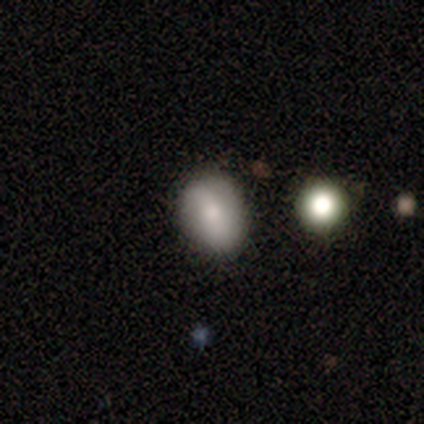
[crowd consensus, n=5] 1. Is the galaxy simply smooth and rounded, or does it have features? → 80% smooth, 20% featured or disk, 0% star or artifact.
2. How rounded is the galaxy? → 75% in between, 25% round, 0% cigar-shaped.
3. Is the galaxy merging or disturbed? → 100% none, 0% minor disturbance, 0% major disturbance, 0% merger.